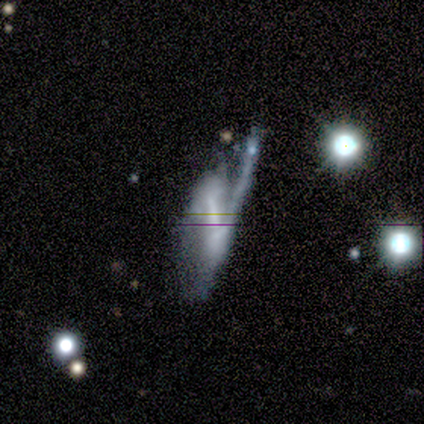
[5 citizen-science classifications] featured or disk 100%, smooth 0%, star or artifact 0%. Down the decision tree: edge-on disk — no (60%); bar — weak (67%); spiral arms — yes (100%); spiral arm count — 1 (67%); spiral winding — loose (67%); bulge size — small (67%); merging — major disturbance (60%).